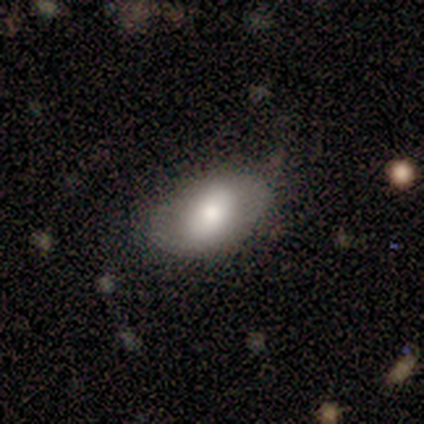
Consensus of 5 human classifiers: Morphology: type=smooth (80%); roundness=in between (100%); merging=none (80%).